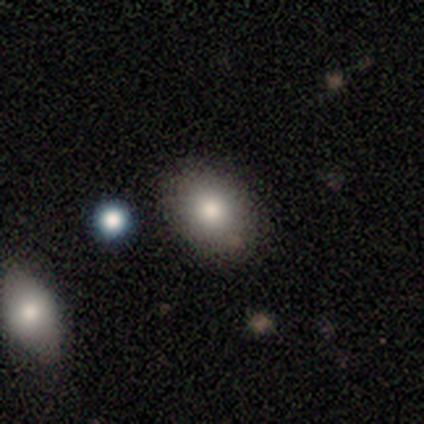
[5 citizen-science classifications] A smooth galaxy with no disk features (100%) that is in between round and cigar-shaped (80%). Merging: none (80%).